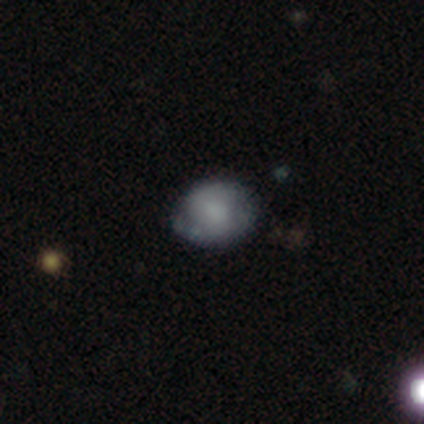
Overall: smooth (60%; featured or disk 20%). How rounded: round (67%; in between 33%). Merging: none (50%; minor disturbance 25%).